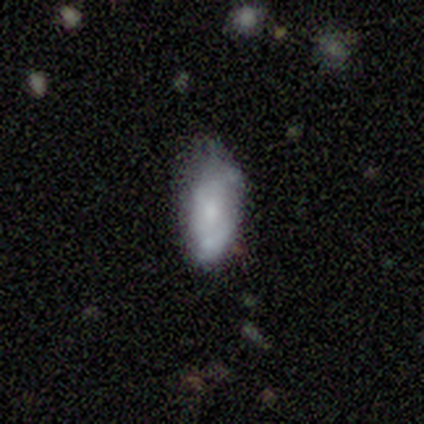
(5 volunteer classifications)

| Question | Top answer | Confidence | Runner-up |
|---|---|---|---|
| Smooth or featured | featured or disk | 60% | smooth (40%) |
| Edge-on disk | no | 67% | yes (33%) |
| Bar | no | 100% | — |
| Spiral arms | yes | 50% | tied: no (50%) |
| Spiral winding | loose | 100% | — |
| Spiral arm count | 2 | 100% | — |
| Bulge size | small | 100% | — |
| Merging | none | 100% | — |